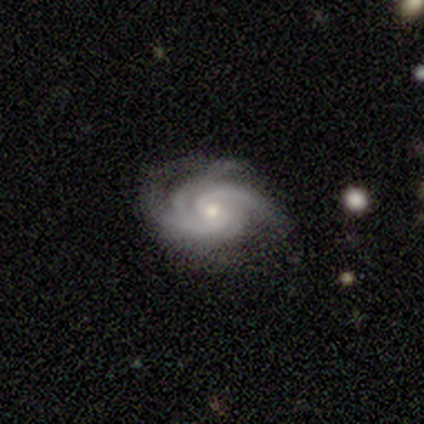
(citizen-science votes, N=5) This appears to be a featured or disk galaxy (80%) with no bar (50%), 3 (75%) tight (50%) spiral arms (100%) and a moderate central bulge (50%, tied with small). Merging: minor disturbance (60%).